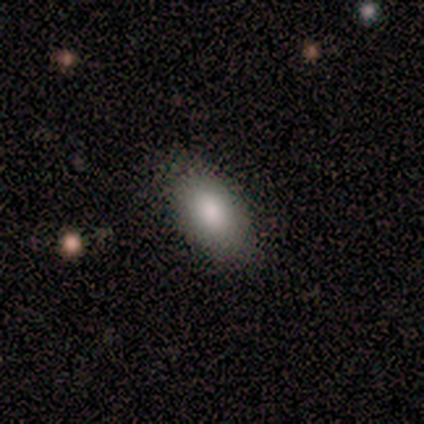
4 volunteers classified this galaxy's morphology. Smooth or featured? 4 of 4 (100%) said smooth. How rounded? 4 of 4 (100%) said in between. Merging? 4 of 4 (100%) said none.